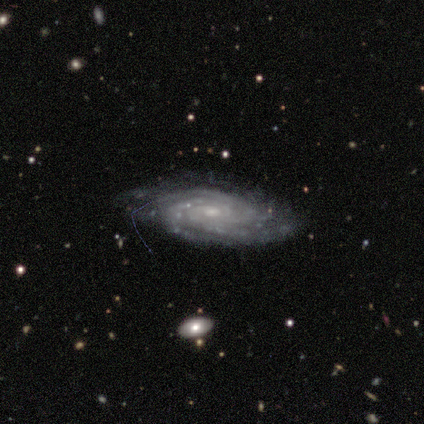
Smooth or featured?
  - featured or disk: 100% *
  - smooth: 0%
  - star or artifact: 0%
Edge-on disk?
  - no: 100% *
  - yes: 0%
Bar?
  - strong: 50% * (tied)
  - no: 50% * (tied)
  - weak: 0%
Spiral arms?
  - yes: 100% *
  - no: 0%
Spiral winding?
  - tight: 50% * (tied)
  - medium: 50% * (tied)
  - loose: 0%
Spiral arm count?
  - 3: 50% *
  - 4: 25%
  - can't tell: 25%
  - 1: 0%
  - 2: 0%
  - more than 4: 0%
Bulge size?
  - small: 50% *
  - moderate: 25%
  - none: 25%
  - dominant: 0%
  - large: 0%
Merging?
  - none: 75% *
  - minor disturbance: 25%
  - major disturbance: 0%
  - merger: 0%